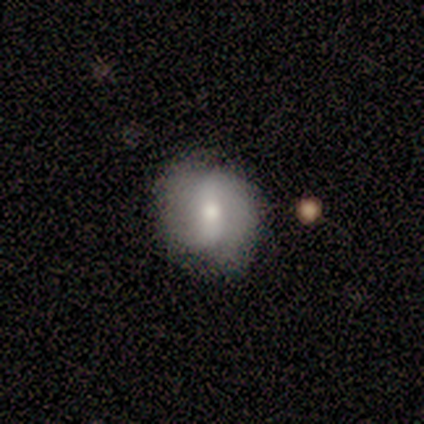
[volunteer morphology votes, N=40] featured or disk 65%, smooth 28%, star or artifact 8%. Down the decision tree: edge-on disk — no (100%); bar — no (42%); spiral arms — yes (73%); spiral arm count — 2 (100%); spiral winding — loose (68%); bulge size — moderate (62%); merging — none (81%).